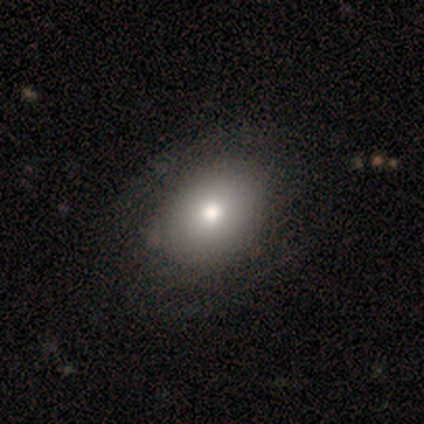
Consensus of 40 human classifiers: Morphology: type=smooth (75%); roundness=in between (77%); merging=none (62%).